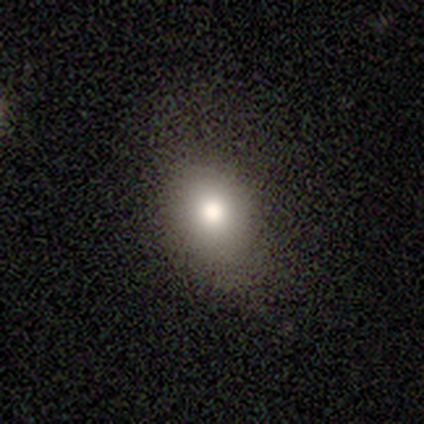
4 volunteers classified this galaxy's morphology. Smooth or featured?
  - smooth: 100% *
  - featured or disk: 0%
  - star or artifact: 0%
How rounded?
  - in between: 100% *
  - round: 0%
  - cigar-shaped: 0%
Merging?
  - none: 100% *
  - minor disturbance: 0%
  - major disturbance: 0%
  - merger: 0%